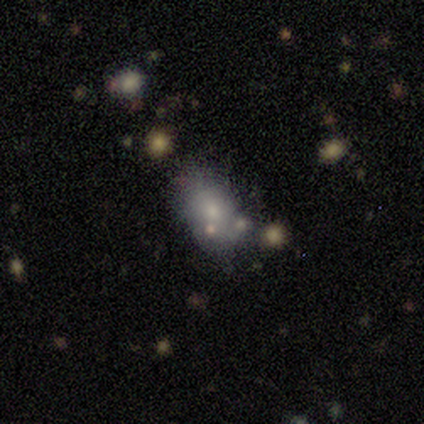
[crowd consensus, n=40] A smooth galaxy with no disk features (65%) that is in between round and cigar-shaped (73%).

Vote fractions:
- Smooth or featured? smooth: 65% / featured or disk: 20% / star or artifact: 15%
- How rounded? in between: 73% / round: 27% / cigar-shaped: 0%
- Merging? none: 56% / minor disturbance: 29% / merger: 9% / major disturbance: 6%